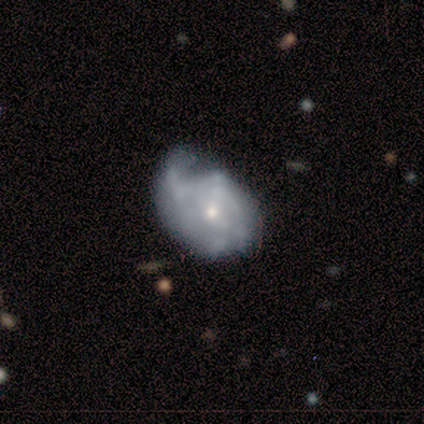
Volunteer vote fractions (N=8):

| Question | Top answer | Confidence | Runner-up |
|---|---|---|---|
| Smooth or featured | featured or disk | 100% | — |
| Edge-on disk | no | 100% | — |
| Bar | no | 62% | weak (25%) |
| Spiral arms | yes | 75% | no (25%) |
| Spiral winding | tight | 50% | medium (33%) |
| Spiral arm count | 1 | 50% | 2 (17%) |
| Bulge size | small | 100% | — |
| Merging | minor disturbance | 62% | none (25%) |